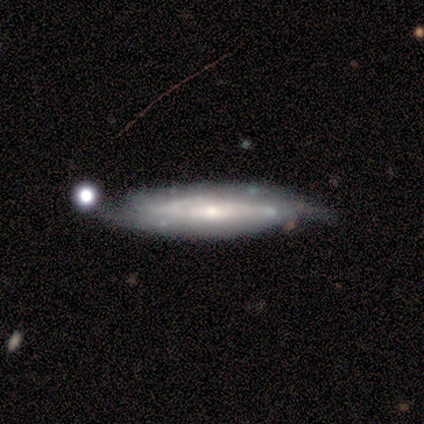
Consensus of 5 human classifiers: Smooth or featured: featured or disk — 80% (smooth — 20%)
Edge-on disk: yes — 50% (tied with no — 50%)
Edge-on bulge: none — 50% (tied with rounded — 50%)
Merging: minor disturbance — 60% (none — 40%)